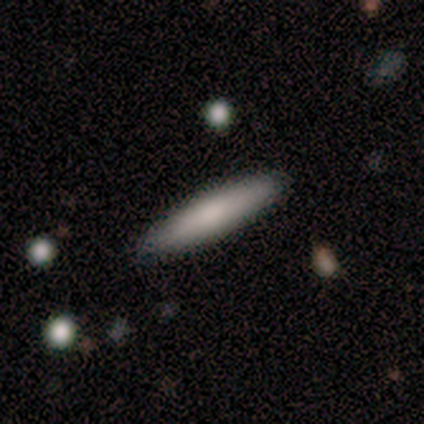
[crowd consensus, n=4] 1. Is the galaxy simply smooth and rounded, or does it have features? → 50% smooth, 25% featured or disk, 25% star or artifact.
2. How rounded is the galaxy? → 100% cigar-shaped, 0% round, 0% in between.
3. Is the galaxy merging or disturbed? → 100% none, 0% minor disturbance, 0% major disturbance, 0% merger.